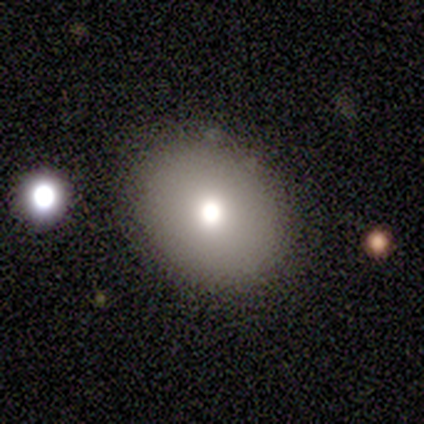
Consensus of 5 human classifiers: Volunteers were most divided on "smooth or featured": smooth: 80%, star or artifact: 20%, featured or disk: 0%. More confident: how rounded — in between (100%); merging — none (100%).